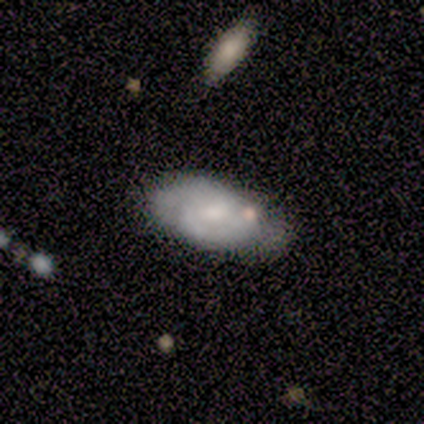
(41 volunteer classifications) smooth-or-featured: featured or disk: 51% | smooth: 46% | star or artifact: 2%
  disk-edge-on: no: 95% | yes: 5%
    bar: no: 70% | weak: 30% | strong: 0%
    has-spiral-arms: yes: 70% | no: 30%
      spiral-winding: tight: 43% | loose: 36% | medium: 21%
      spiral-arm-count: 2: 79% | can't tell: 21% | 1: 0% | 3: 0% | 4: 0% | more than 4: 0%
    bulge-size: moderate: 45% (tied) | small: 45% (tied) | large: 5% | none: 5% | dominant: 0%
  merging: none: 50% | minor disturbance: 30% | major disturbance: 10% | merger: 10%